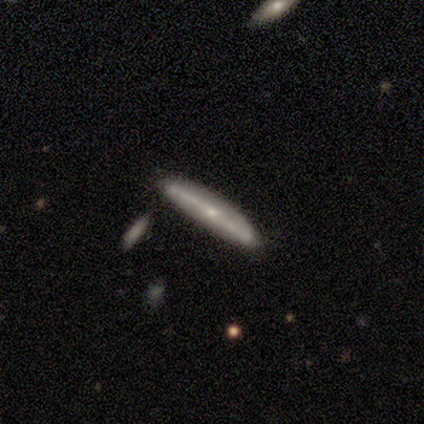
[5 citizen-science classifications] Volunteers were most divided on "smooth or featured": smooth: 80%, featured or disk: 20%, star or artifact: 0%. More confident: how rounded — cigar-shaped (100%); merging — none (80%).